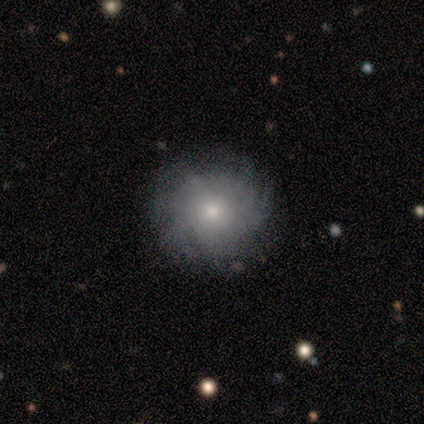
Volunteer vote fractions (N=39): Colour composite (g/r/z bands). It shows a featured or disk galaxy (49%) with no bar (79%), tight (54%) spiral arms (68%) and a small central bulge (68%). Merging: none (77%).